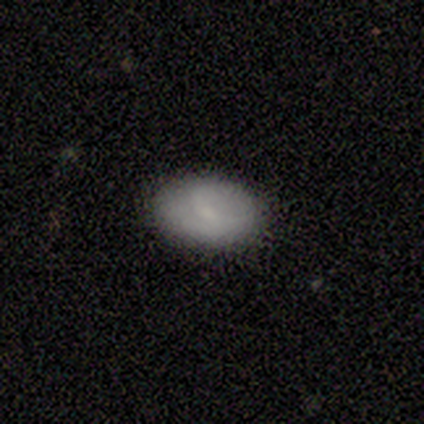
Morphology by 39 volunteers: type=smooth (62%); roundness=in between (83%); merging=none (81%).